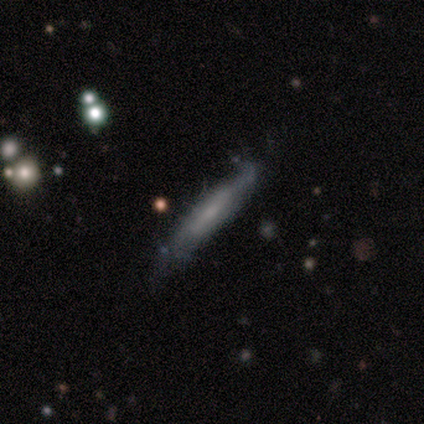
Q: Smooth or featured?
A: featured or disk (50%); runner-up: smooth (48%)
Q: Edge-on disk?
A: yes (85%); runner-up: no (15%)
Q: Edge-on bulge?
A: none (47%); runner-up: boxy (29%)
Q: Merging?
A: none (62%); runner-up: minor disturbance (26%)